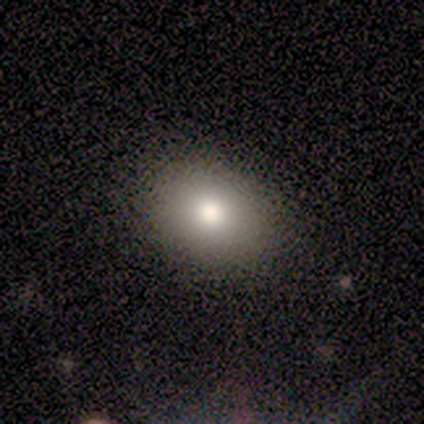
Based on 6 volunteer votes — Smooth or featured: smooth — 83% (star or artifact — 17%)
How rounded: in between — 80% (round — 20%)
Merging: none — 80% (minor disturbance — 20%)